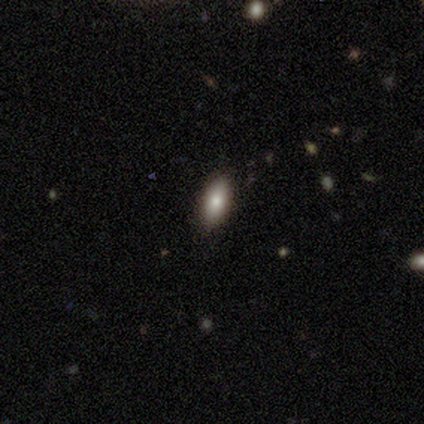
A smooth galaxy with no disk features (80%) that is in between round and cigar-shaped (75%).

Vote fractions:
- Smooth or featured? smooth: 80% / featured or disk: 20% / star or artifact: 0%
- How rounded? in between: 75% / cigar-shaped: 25% / round: 0%
- Merging? none: 100% / minor disturbance: 0% / major disturbance: 0% / merger: 0%